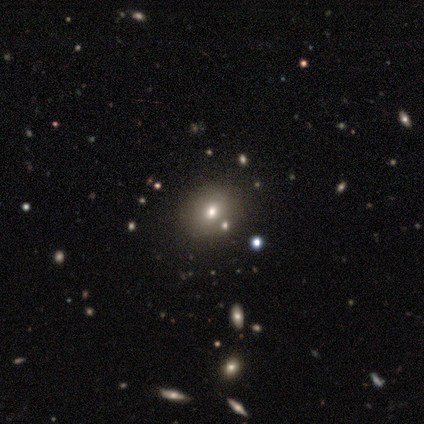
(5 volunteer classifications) smooth 80%, star or artifact 20%, featured or disk 0%. Down the decision tree: how rounded — round (50%, tied with in between); merging — none (75%).